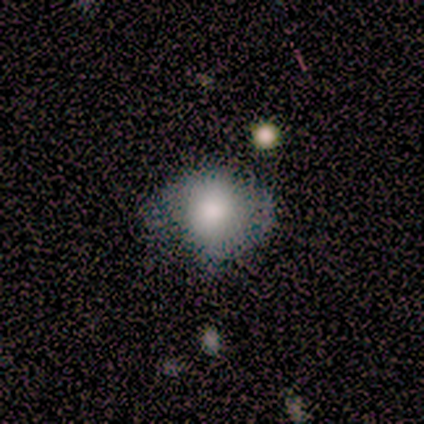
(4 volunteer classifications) smooth 50% (tied), star or artifact 50% (tied), featured or disk 0%. Down the decision tree: how rounded — round (100%); merging — none (100%).